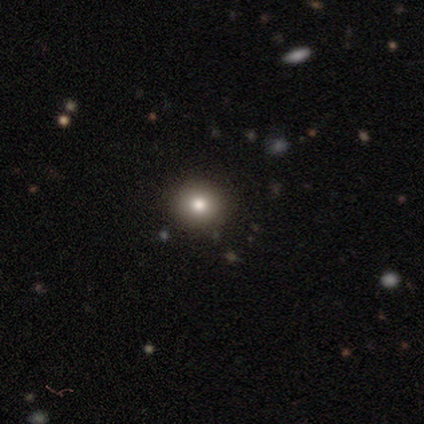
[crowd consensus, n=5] Q: Smooth or featured?
A: smooth (60%); runner-up: featured or disk (20%)
Q: How rounded?
A: in between (67%); runner-up: round (33%)
Q: Merging?
A: none (75%); runner-up: major disturbance (25%)